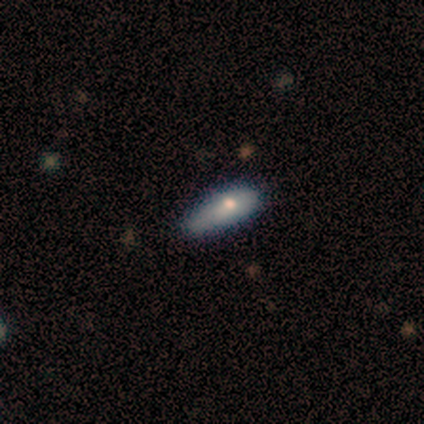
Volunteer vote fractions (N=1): Consensus on every question: smooth or featured — smooth (100%); how rounded — in between (100%); merging — merger (100%).